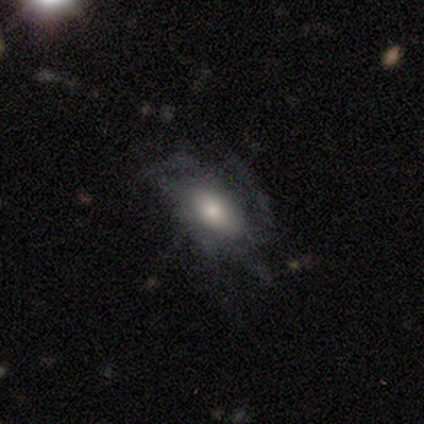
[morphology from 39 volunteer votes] A featured or disk galaxy (59%) with no bar (70%), tight (40%) spiral arms (65%) and a moderate central bulge (61%). Merging: major disturbance (32%).